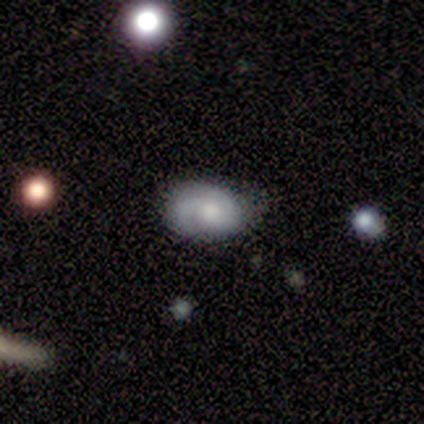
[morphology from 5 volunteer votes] Smooth or featured? 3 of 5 (60%) said featured or disk. Edge-on disk? 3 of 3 (100%) said no. Bar? 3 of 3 (100%) said no. Spiral arms? 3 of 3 (100%) said yes. Spiral winding? 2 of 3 (67%) said tight. Spiral arm count? 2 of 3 (67%) said 1. Bulge size? 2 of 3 (67%) said moderate. Merging? 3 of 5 (60%) said none.